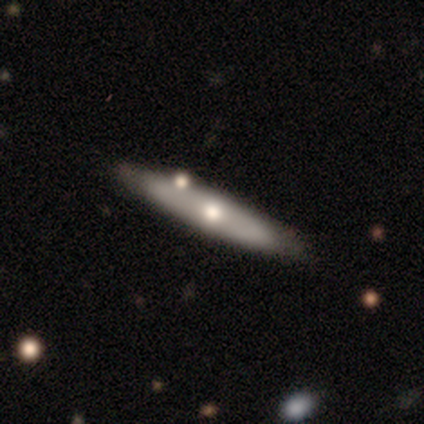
This is likely a featured or disk galaxy (62%). It is likely viewed edge-on (75%). Edge-on bulge: likely rounded (67%). Merging: likely none (77%).